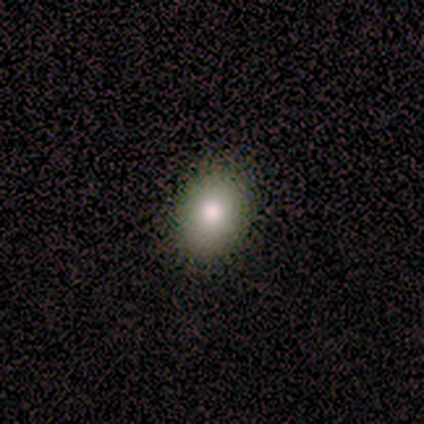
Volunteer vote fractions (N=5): Smooth or featured: smooth — 100%
How rounded: in between — 80% (round — 20%)
Merging: none — 60% (minor disturbance — 40%)